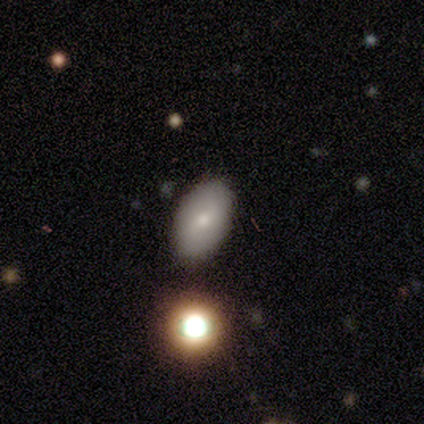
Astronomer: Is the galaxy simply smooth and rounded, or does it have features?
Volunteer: smooth — 88%.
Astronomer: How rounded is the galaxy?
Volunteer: in between — 100%.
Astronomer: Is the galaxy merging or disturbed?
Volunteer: none — 100%.